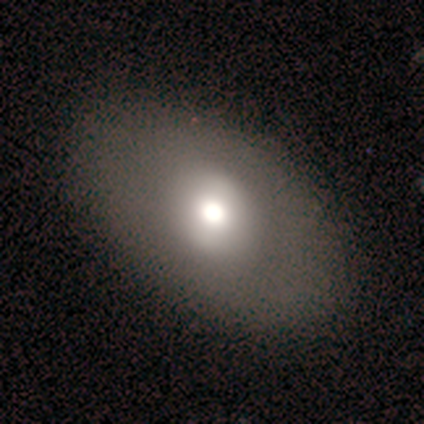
A featured or disk galaxy (60%) with a weak bar (50%, tied with no), no spiral arms (100%) and a large central bulge (50%, tied with moderate). Merging: none (80%).